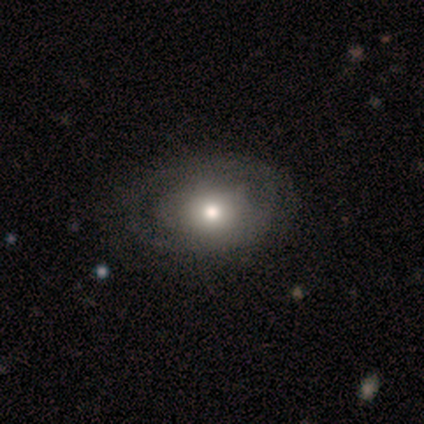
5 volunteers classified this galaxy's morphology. smooth 60%, featured or disk 40%, star or artifact 0%. Down the decision tree: how rounded — in between (100%); merging — none (60%).